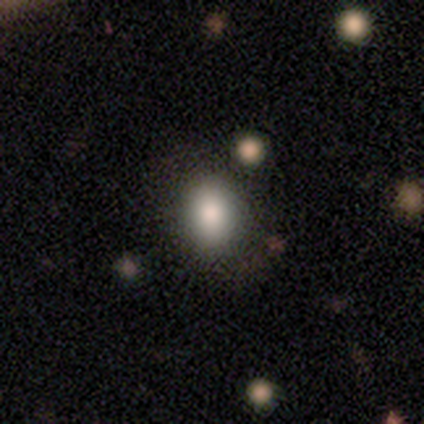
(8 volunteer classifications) smooth_or_featured: smooth (p=0.88) [alt: star or artifact p=0.12]
how_rounded: in between (p=0.86) [alt: round p=0.14]
merging: none (p=0.71) [alt: minor disturbance p=0.29]